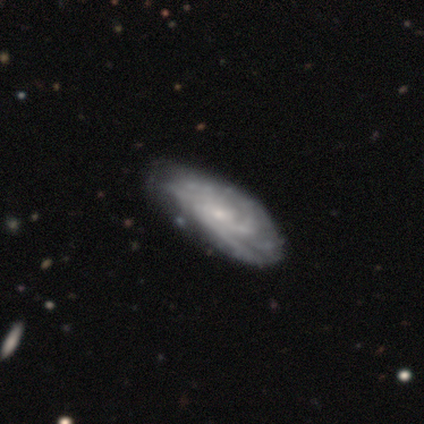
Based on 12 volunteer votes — Smooth or featured? featured or disk (58%)
Edge-on disk? no (86%)
Bar? no (83%)
Spiral arms? yes (100%)
Spiral winding? tight (50%)
Spiral arm count? can't tell (67%)
Bulge size? moderate (50%)
Merging? none (70%)